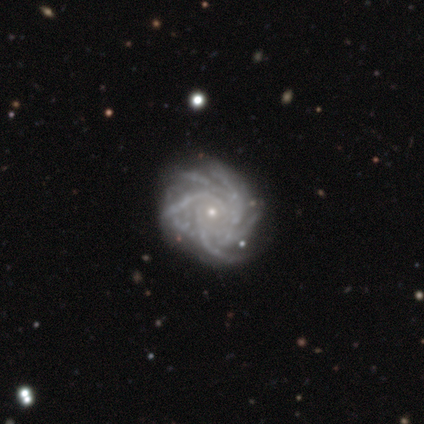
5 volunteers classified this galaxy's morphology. A featured or disk galaxy (100%) with no bar (80%), more than 4 (80%) medium (60%) spiral arms (100%) and a small central bulge (100%). Merging: none (80%).